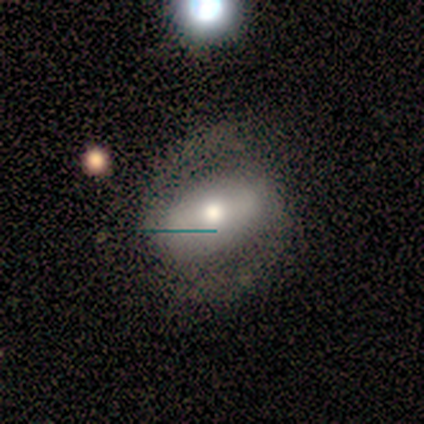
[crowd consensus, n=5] smooth-or-featured: featured or disk: 60% | smooth: 40% | star or artifact: 0%
  disk-edge-on: no: 100% | yes: 0%
    bar: no: 67% | weak: 33% | strong: 0%
    has-spiral-arms: yes: 100% | no: 0%
      spiral-winding: tight: 67% | medium: 33% | loose: 0%
      spiral-arm-count: 2: 100% | 1: 0% | 3: 0% | 4: 0% | more than 4: 0% | can't tell: 0%
    bulge-size: moderate: 67% | small: 33% | dominant: 0% | large: 0% | none: 0%
  merging: none: 60% | minor disturbance: 40% | major disturbance: 0% | merger: 0%